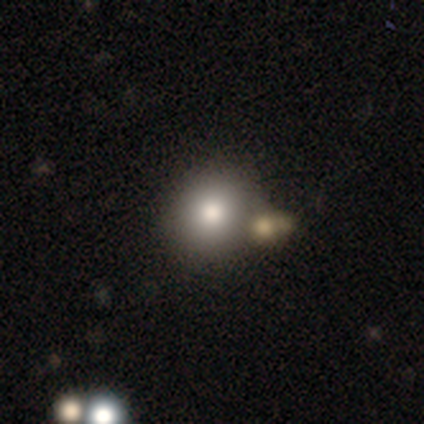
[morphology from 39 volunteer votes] Overall: smooth (85%). How rounded: round (82%). Merging: none (64%; merger 28%).